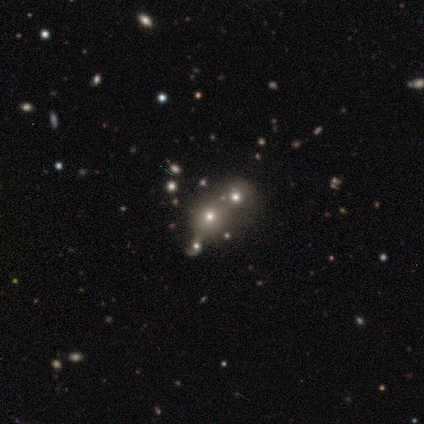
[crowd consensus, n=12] Smooth or featured?
  - smooth: 75% *
  - star or artifact: 17%
  - featured or disk: 8%
How rounded?
  - round: 56% *
  - in between: 44%
  - cigar-shaped: 0%
Merging?
  - none: 40% * (tied)
  - merger: 40% * (tied)
  - minor disturbance: 20%
  - major disturbance: 0%